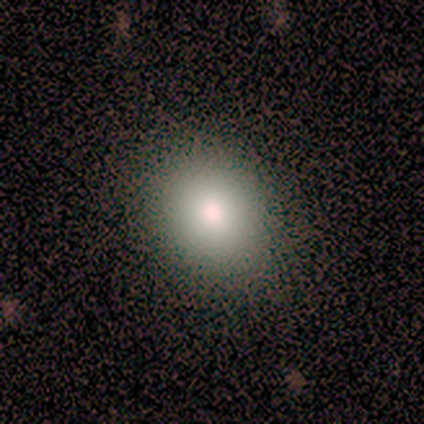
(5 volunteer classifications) smooth-or-featured: smooth: 100% | featured or disk: 0% | star or artifact: 0%
  how-rounded: in between: 60% | round: 40% | cigar-shaped: 0%
  merging: none: 100% | minor disturbance: 0% | major disturbance: 0% | merger: 0%